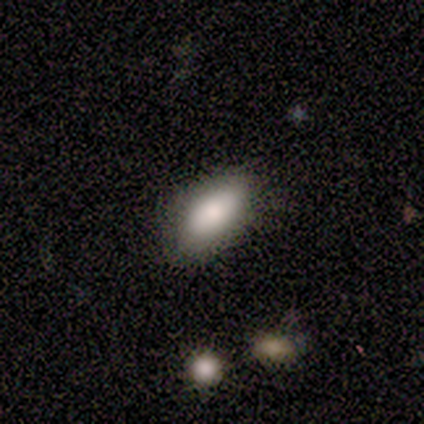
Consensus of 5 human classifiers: This appears to be a smooth galaxy with no disk features (60%) that is in between round and cigar-shaped (100%). Merging: none (50%, tied with minor disturbance).